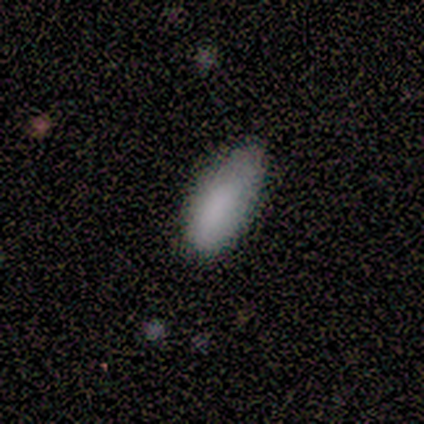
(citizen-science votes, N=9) Smooth or featured: smooth — 100%
How rounded: in between — 78% (cigar-shaped — 22%)
Merging: none — 67% (minor disturbance — 22%)